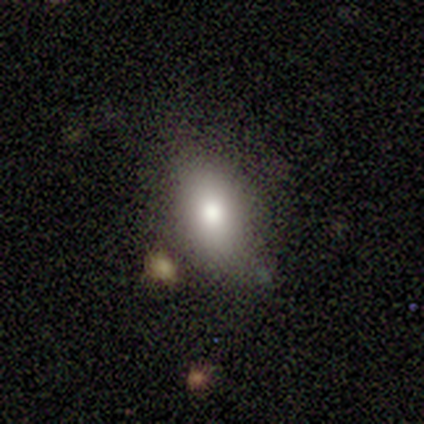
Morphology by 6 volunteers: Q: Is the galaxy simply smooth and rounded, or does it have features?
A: smooth — 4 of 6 (67%).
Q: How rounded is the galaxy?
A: in between — 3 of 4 (75%).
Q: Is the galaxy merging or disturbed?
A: none — 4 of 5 (80%).